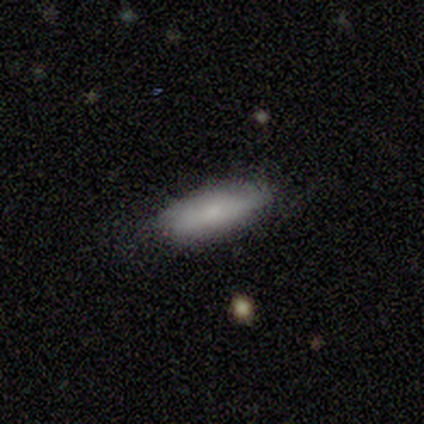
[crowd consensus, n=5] This is clearly a smooth galaxy (80%). How rounded: likely in between (75%). Merging: clearly none (100%).